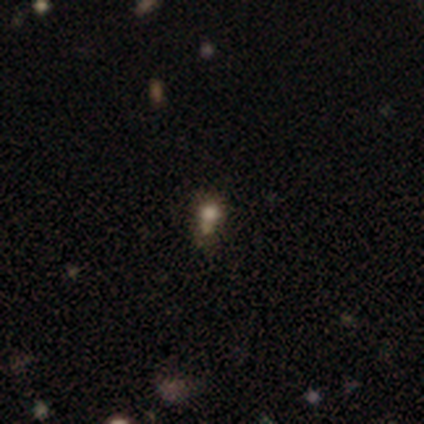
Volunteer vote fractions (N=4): smooth_or_featured: star or artifact (p=0.75) [alt: featured or disk p=0.25]